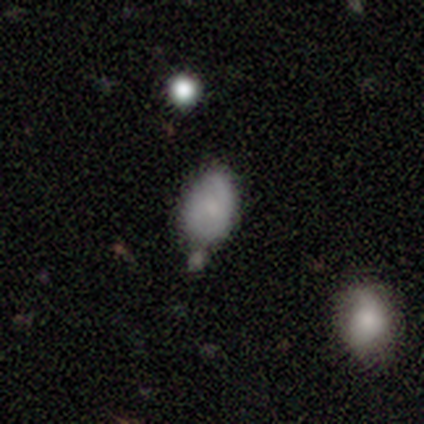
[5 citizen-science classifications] Smooth or featured? smooth (60%)
How rounded? in between (100%)
Merging? minor disturbance (60%)